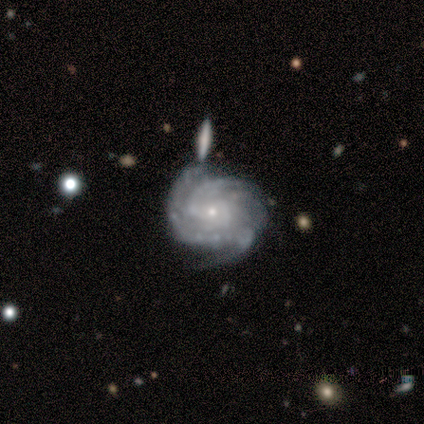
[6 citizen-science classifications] Smooth or featured: featured or disk — 100%
Edge-on disk: no — 100%
Bar: no — 83% (strong — 17%)
Spiral arms: yes — 100%
Spiral winding: tight — 67% (medium — 33%)
Spiral arm count: more than 4 — 33% (tied with can't tell — 33%)
Bulge size: small — 100%
Merging: none — 67% (minor disturbance — 33%)